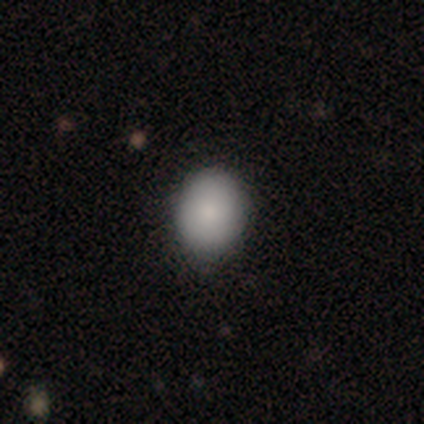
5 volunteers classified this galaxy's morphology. A smooth galaxy with no disk features (60%) that is round (67%).

Vote fractions:
- Smooth or featured? smooth: 60% / star or artifact: 40% / featured or disk: 0%
- How rounded? round: 67% / in between: 33% / cigar-shaped: 0%
- Merging? none: 100% / minor disturbance: 0% / major disturbance: 0% / merger: 0%